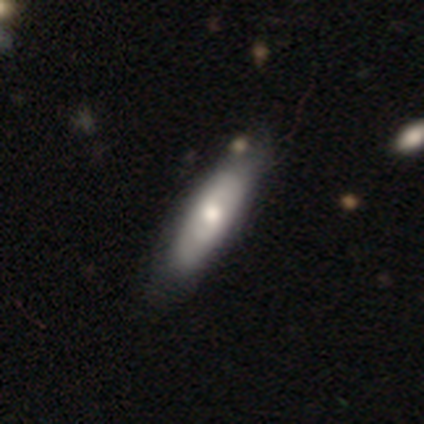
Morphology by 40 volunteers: A featured or disk galaxy (55%) with no bar (80%), no spiral arms (60%) and a moderate central bulge (67%).

Vote fractions:
- Smooth or featured? featured or disk: 55% / smooth: 45% / star or artifact: 0%
- Edge-on disk? no: 68% / yes: 32%
- Bar? no: 80% / weak: 20% / strong: 0%
- Spiral arms? no: 60% / yes: 40%
- Bulge size? moderate: 67% / small: 20% / dominant: 7% / large: 7% / none: 0%
- Merging? none: 48% / minor disturbance: 12% / merger: 5% / major disturbance: 0%